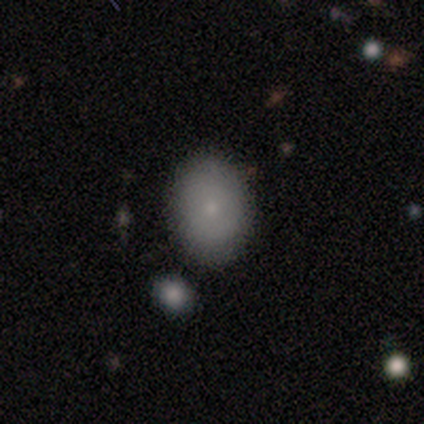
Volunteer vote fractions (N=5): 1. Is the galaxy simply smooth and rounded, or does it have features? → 60% smooth, 20% featured or disk, 20% star or artifact.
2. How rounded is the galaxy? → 67% in between, 33% round, 0% cigar-shaped.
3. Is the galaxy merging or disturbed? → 75% none, 25% minor disturbance, 0% major disturbance, 0% merger.